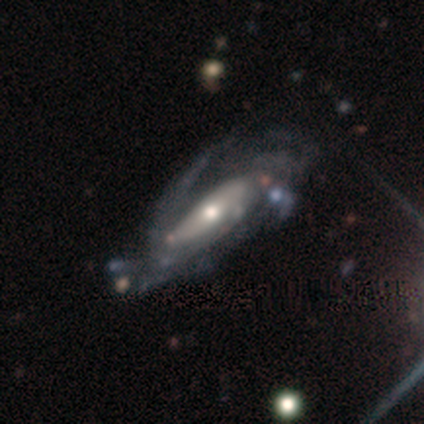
Overall: featured or disk (100%). Edge-on disk: no (100%). Bar: no (60%; strong 20%). Spiral arms: yes (100%). Spiral arm count: 2 (40%, tied with can't tell). Spiral winding: tight (40%, tied with medium). Bulge size: moderate (80%). Merging: major disturbance (80%).